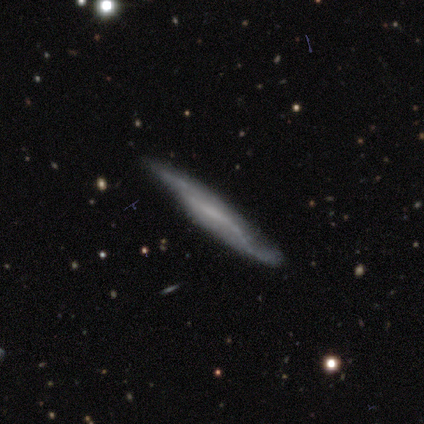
A featured or disk galaxy (79%) viewed edge-on (77%) with no central bulge (70%). Merging: none (62%).